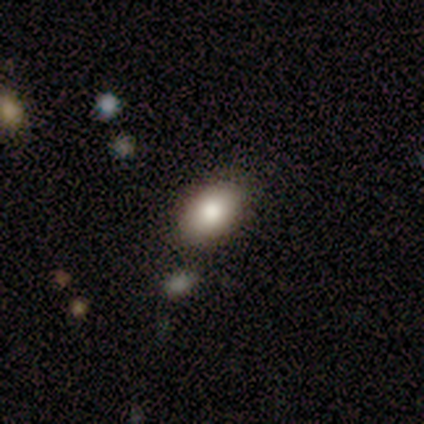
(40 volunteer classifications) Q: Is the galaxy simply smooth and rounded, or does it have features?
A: smooth — 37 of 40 (92%).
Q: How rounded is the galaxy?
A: in between — 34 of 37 (92%).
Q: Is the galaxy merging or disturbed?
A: none — 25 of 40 (62%).